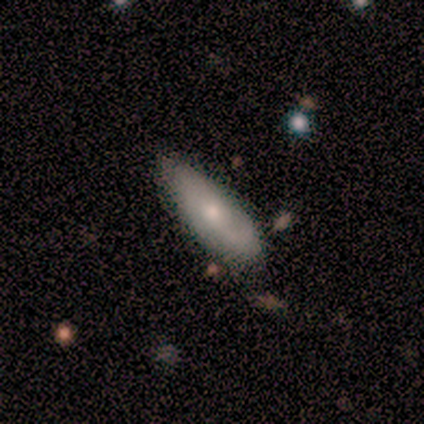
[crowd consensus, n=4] This is possibly a smooth galaxy (50%, tied with featured or disk). How rounded: clearly in between (100%). Merging: possibly minor disturbance (50%).